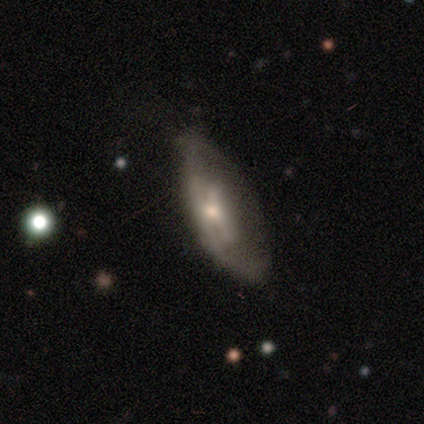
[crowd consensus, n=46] Smooth or featured?
  - smooth: 50% *
  - featured or disk: 46%
  - star or artifact: 4%
How rounded?
  - in between: 87% *
  - cigar-shaped: 9%
  - round: 4%
Merging?
  - none: 48% *
  - major disturbance: 30%
  - minor disturbance: 20%
  - merger: 2%